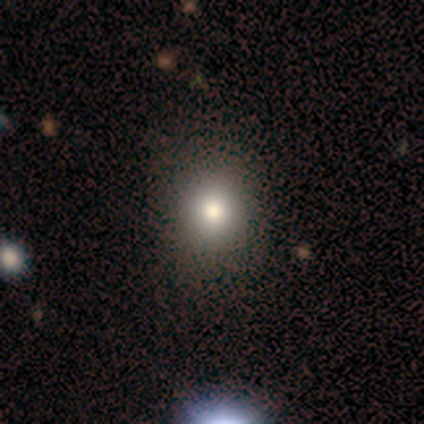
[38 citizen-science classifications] This appears to be a smooth galaxy with no disk features (84%) that is round (88%). Merging: none (57%).